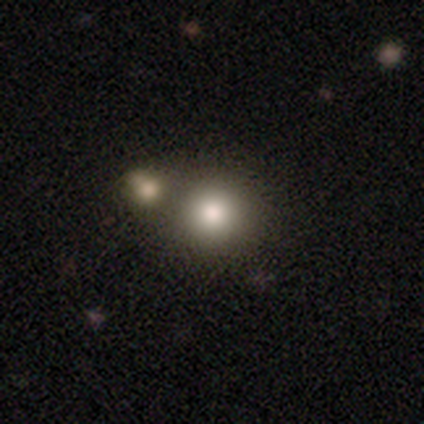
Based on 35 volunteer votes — Smooth or featured: smooth — 86% (featured or disk — 11%)
How rounded: round — 90% (in between — 10%)
Merging: merger — 65%